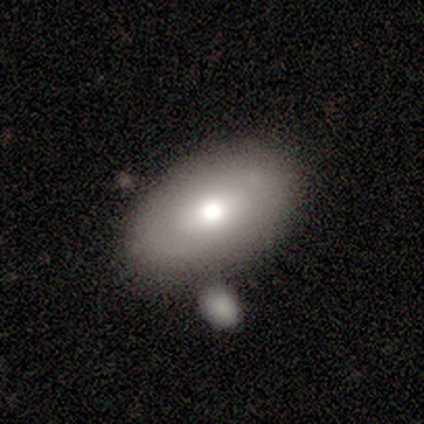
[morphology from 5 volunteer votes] Overall: smooth (80%). How rounded: in between (100%). Merging: none (80%).